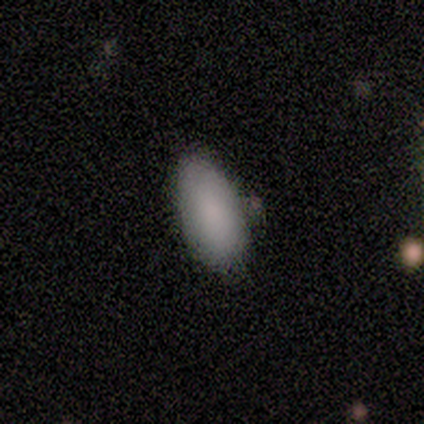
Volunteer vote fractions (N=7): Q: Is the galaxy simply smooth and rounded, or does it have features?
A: smooth — 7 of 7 (100%).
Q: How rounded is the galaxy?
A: in between — 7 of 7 (100%).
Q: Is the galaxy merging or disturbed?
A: none — 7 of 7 (100%).